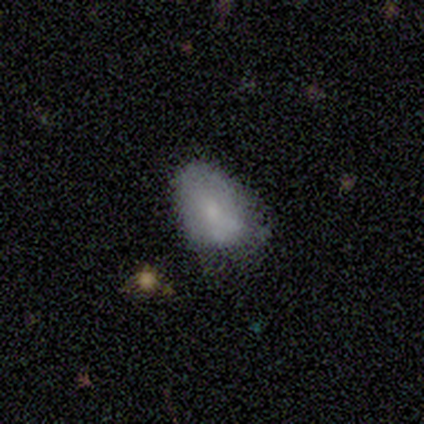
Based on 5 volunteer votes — Morphology: type=smooth (60%); roundness=in between (67%); merging=minor disturbance (75%).